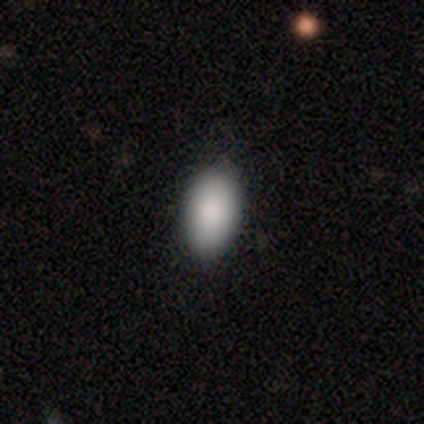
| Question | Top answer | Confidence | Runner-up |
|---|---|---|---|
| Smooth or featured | smooth | 98% | featured or disk (2%) |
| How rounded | in between | 87% | round (10%) |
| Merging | none | 88% | minor disturbance (10%) |